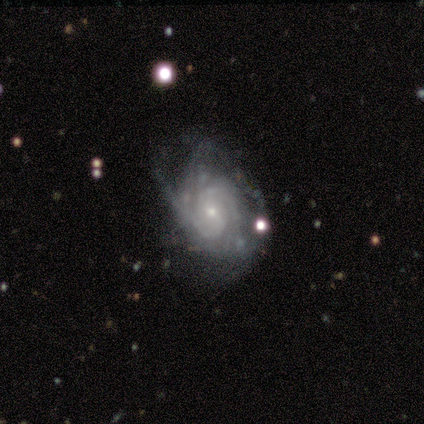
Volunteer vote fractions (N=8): This appears to be a featured or disk galaxy (100%) with no bar (75%), 3 (38%) tight (62%) spiral arms (100%) and a small central bulge (62%). Merging: minor disturbance (50%).